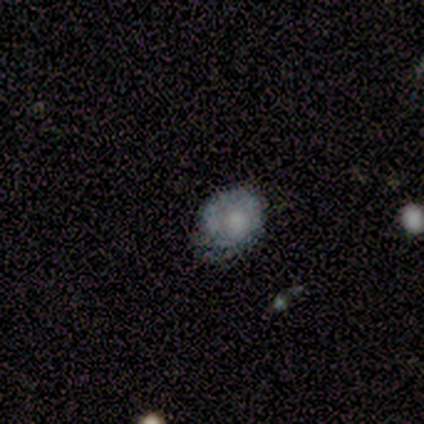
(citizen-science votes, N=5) Morphology: type=smooth (80%); roundness=in between (100%); merging=none (75%).